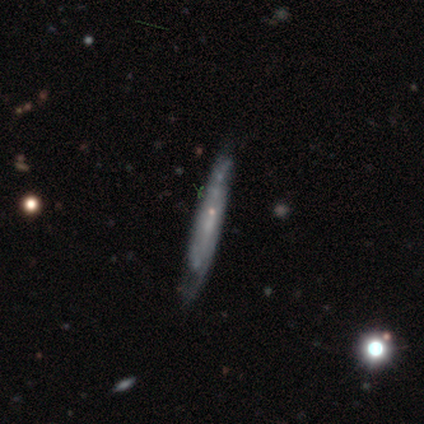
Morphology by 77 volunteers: This is likely a featured or disk galaxy (78%). It is likely viewed edge-on (73%). Edge-on bulge: likely none (66%). Merging: marginally none (30%).